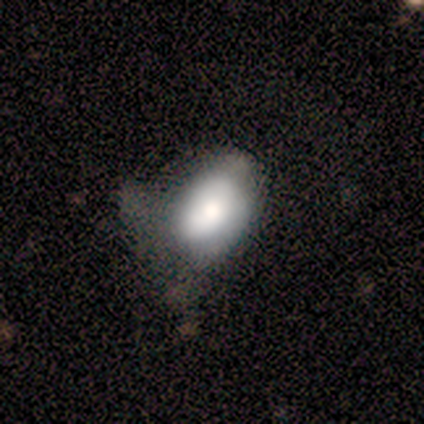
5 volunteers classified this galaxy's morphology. smooth-or-featured: smooth: 80% | featured or disk: 20% | star or artifact: 0%
  how-rounded: in between: 100% | round: 0% | cigar-shaped: 0%
  merging: major disturbance: 40% | none: 20% | minor disturbance: 20% | merger: 20%